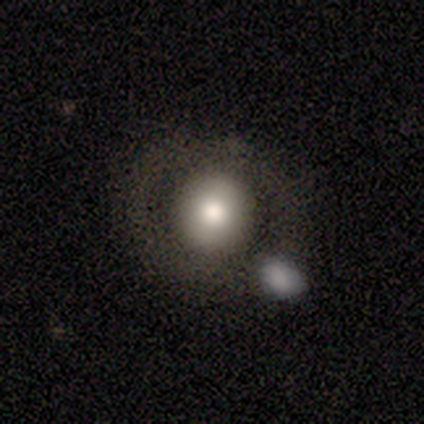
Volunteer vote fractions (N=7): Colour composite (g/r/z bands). It shows a smooth galaxy with no disk features (57%) that is round (100%). Merging: none (83%).